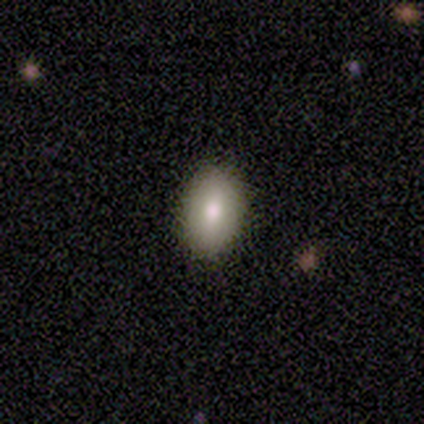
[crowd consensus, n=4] smooth 100%, featured or disk 0%, star or artifact 0%. Down the decision tree: how rounded — in between (100%); merging — none (100%).